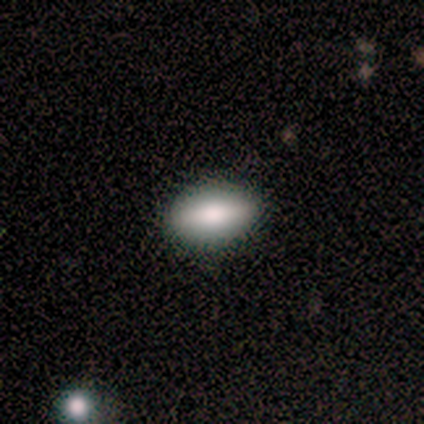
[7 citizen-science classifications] A smooth galaxy with no disk features (57%) that is in between round and cigar-shaped (75%).

Vote fractions:
- Smooth or featured? smooth: 57% / featured or disk: 43% / star or artifact: 0%
- How rounded? in between: 75% / cigar-shaped: 25% / round: 0%
- Merging? none: 100% / minor disturbance: 0% / major disturbance: 0% / merger: 0%